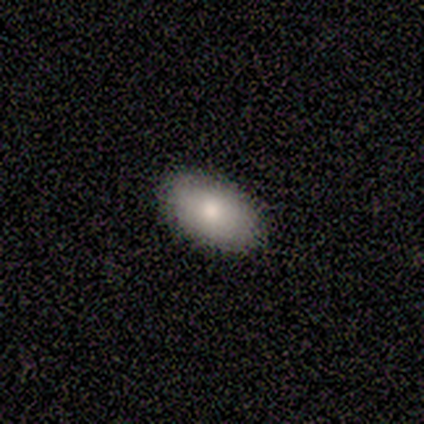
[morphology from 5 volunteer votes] Smooth or featured? 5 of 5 (100%) said smooth. How rounded? 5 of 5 (100%) said in between. Merging? 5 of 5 (100%) said none.